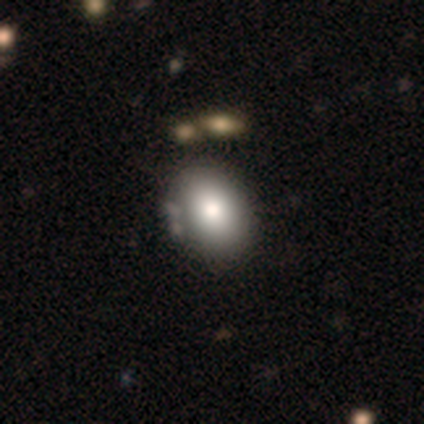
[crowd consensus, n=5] A smooth galaxy with no disk features (60%) that is in between round and cigar-shaped (67%).

Vote fractions:
- Smooth or featured? smooth: 60% / featured or disk: 20% / star or artifact: 20%
- How rounded? in between: 67% / round: 33% / cigar-shaped: 0%
- Merging? none: 50% (tied) / minor disturbance: 50% (tied) / major disturbance: 0% / merger: 0%